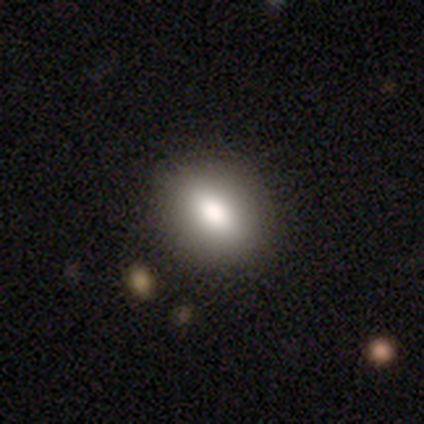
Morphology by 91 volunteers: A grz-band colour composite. It shows a smooth galaxy with no disk features (75%) that is in between round and cigar-shaped (62%). Merging: none (86%).